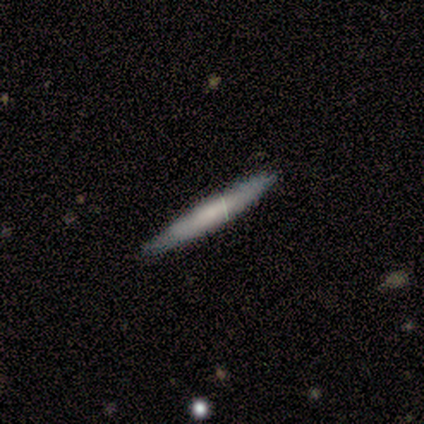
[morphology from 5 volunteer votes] Q: Smooth or featured?
A: smooth (60%); runner-up: featured or disk (40%)
Q: How rounded?
A: cigar-shaped (100%)
Q: Merging?
A: none (80%); runner-up: minor disturbance (20%)